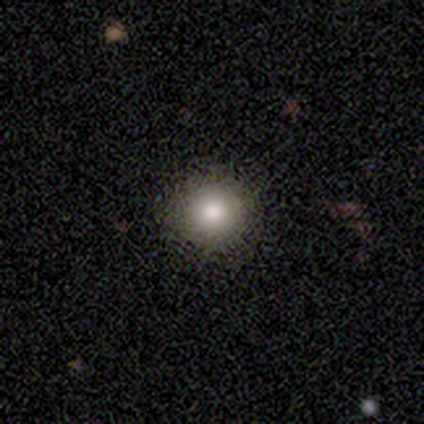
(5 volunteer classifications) Smooth or featured?
  - smooth: 80% *
  - featured or disk: 20%
  - star or artifact: 0%
How rounded?
  - round: 100% *
  - in between: 0%
  - cigar-shaped: 0%
Merging?
  - none: 100% *
  - minor disturbance: 0%
  - major disturbance: 0%
  - merger: 0%